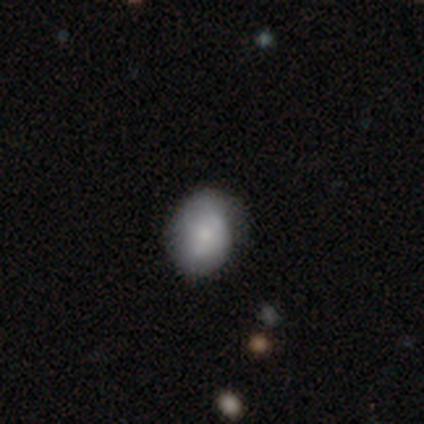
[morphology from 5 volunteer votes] A smooth galaxy with no disk features (60%) that is round (67%). Merging: none (60%).